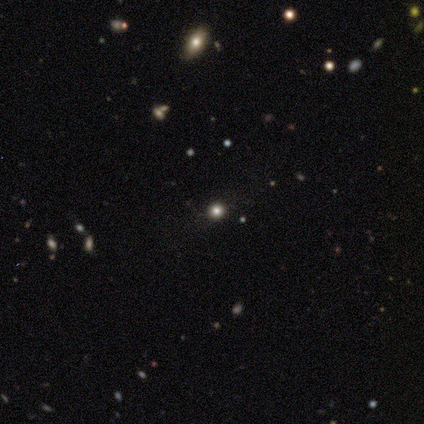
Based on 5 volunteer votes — smooth-or-featured: star or artifact: 60% | smooth: 20% | featured or disk: 20%